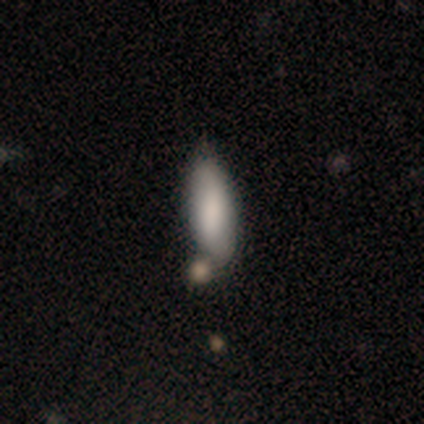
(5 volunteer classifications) This appears to be a smooth galaxy with no disk features (100%) that is in between round and cigar-shaped (80%). Merging: none (80%).